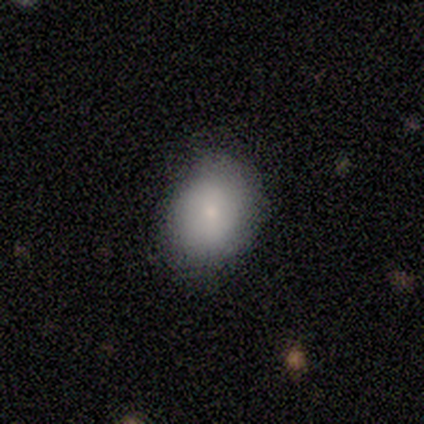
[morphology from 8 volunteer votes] Q: Smooth or featured?
A: smooth (75%); runner-up: featured or disk (12%)
Q: How rounded?
A: round (50%); tied with: in between (50%)
Q: Merging?
A: none (86%); runner-up: minor disturbance (14%)